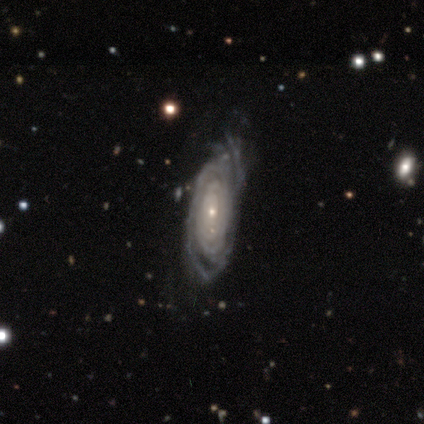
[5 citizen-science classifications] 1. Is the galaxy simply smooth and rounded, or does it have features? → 100% featured or disk, 0% smooth, 0% star or artifact.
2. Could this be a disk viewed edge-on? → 100% no, 0% yes.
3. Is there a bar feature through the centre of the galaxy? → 80% no, 20% strong, 0% weak.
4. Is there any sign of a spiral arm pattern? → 80% yes, 20% no.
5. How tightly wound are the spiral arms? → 75% tight, 25% medium, 0% loose.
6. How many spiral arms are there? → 50% 4, 25% 2, 25% more than 4, 0% 1, 0% 3, 0% can't tell.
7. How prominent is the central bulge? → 100% small, 0% dominant, 0% large, 0% moderate, 0% none.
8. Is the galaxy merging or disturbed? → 60% none, 40% minor disturbance, 0% major disturbance, 0% merger.